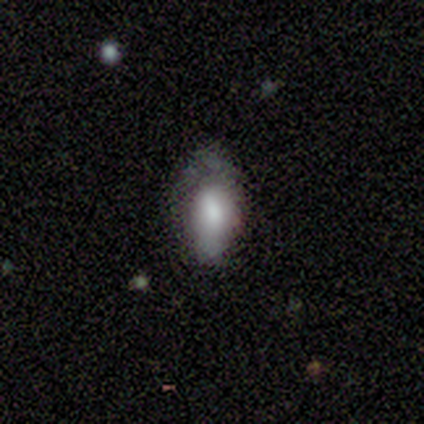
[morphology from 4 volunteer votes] This is possibly a smooth galaxy (50%, tied with star or artifact). How rounded: possibly in between (50%, tied with cigar-shaped). Merging: clearly none (100%).